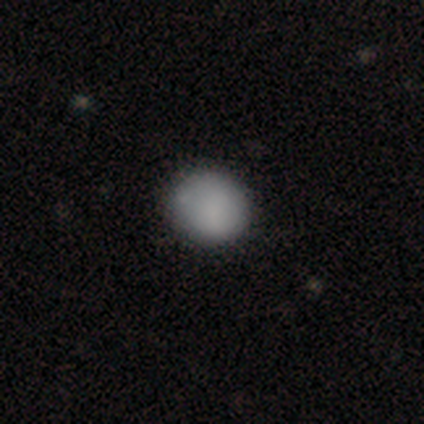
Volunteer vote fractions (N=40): Smooth or featured?
  - smooth: 90% *
  - featured or disk: 10%
  - star or artifact: 0%
How rounded?
  - round: 86% *
  - in between: 11%
  - cigar-shaped: 3%
Merging?
  - none: 85% *
  - minor disturbance: 8%
  - major disturbance: 8%
  - merger: 0%